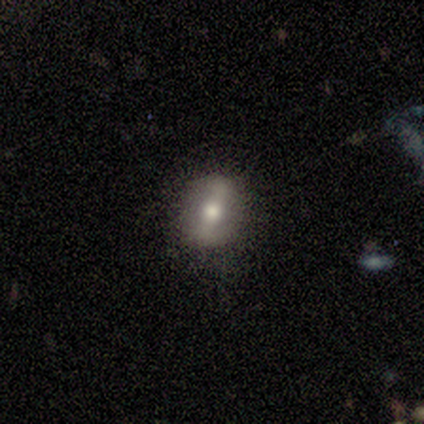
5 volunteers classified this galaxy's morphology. This appears to be a featured or disk galaxy (80%) with a strong bar (50%, tied with weak), no spiral arms (75%) and a moderate central bulge (75%). Merging: none (50%, tied with minor disturbance).